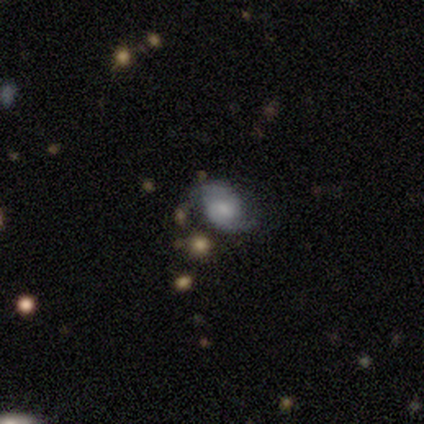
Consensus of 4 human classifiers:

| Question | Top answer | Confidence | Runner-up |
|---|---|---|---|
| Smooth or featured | featured or disk | 75% | smooth (25%) |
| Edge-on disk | no | 100% | — |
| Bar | no | 100% | — |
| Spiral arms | yes | 100% | — |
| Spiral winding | medium | 67% | loose (33%) |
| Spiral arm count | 2 | 67% | can't tell (33%) |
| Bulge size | small | 67% | large (33%) |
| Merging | none | 100% | — |